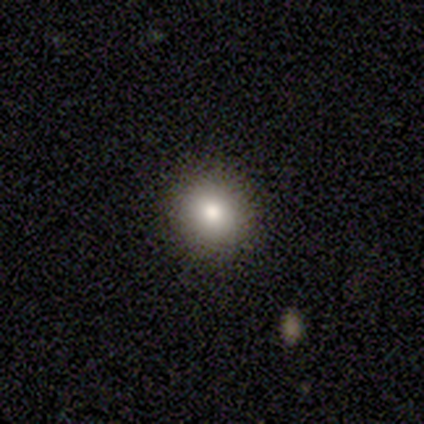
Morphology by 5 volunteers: A smooth galaxy with no disk features (100%) that is round (100%).

Vote fractions:
- Smooth or featured? smooth: 100% / featured or disk: 0% / star or artifact: 0%
- How rounded? round: 100% / in between: 0% / cigar-shaped: 0%
- Merging? none: 100% / minor disturbance: 0% / major disturbance: 0% / merger: 0%